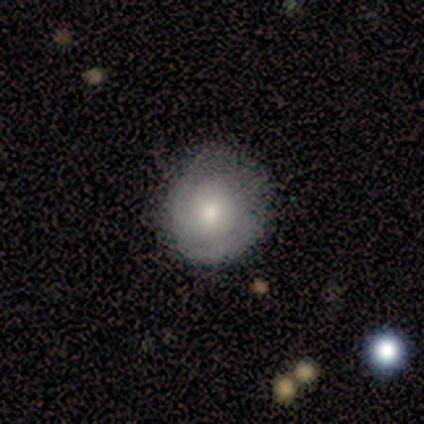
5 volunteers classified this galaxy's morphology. featured or disk 60%, smooth 40%, star or artifact 0%. Down the decision tree: edge-on disk — no (100%); bar — no (67%); spiral arms — yes (67%); spiral arm count — 2 (50%, tied with can't tell); spiral winding — tight (100%); bulge size — moderate (67%); merging — none (60%).